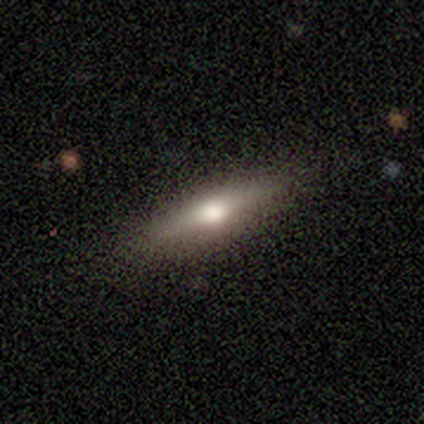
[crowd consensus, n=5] Smooth or featured? featured or disk (60%)
Edge-on disk? yes (100%)
Edge-on bulge? rounded (100%)
Merging? none (100%)